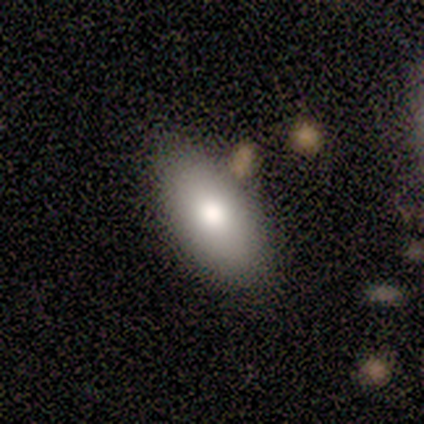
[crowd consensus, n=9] Volunteers were most divided on "smooth or featured": smooth: 67%, featured or disk: 22%, star or artifact: 11%. More confident: how rounded — in between (100%); merging — none (75%).